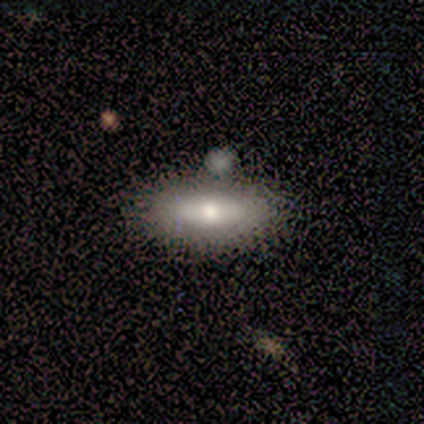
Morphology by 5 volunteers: smooth 80%, featured or disk 20%, star or artifact 0%. Down the decision tree: how rounded — in between (75%); merging — none (40%, tied with minor disturbance).